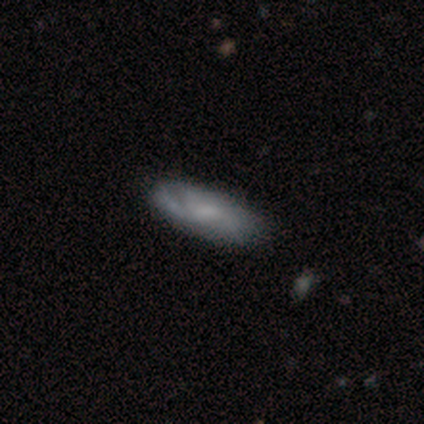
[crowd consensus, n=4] featured or disk 75%, smooth 25%, star or artifact 0%. Down the decision tree: edge-on disk — no (67%); bar — weak (50%, tied with no); spiral arms — yes (100%); spiral arm count — 2 (50%, tied with can't tell); spiral winding — tight (50%, tied with medium); bulge size — small (100%); merging — minor disturbance (50%).